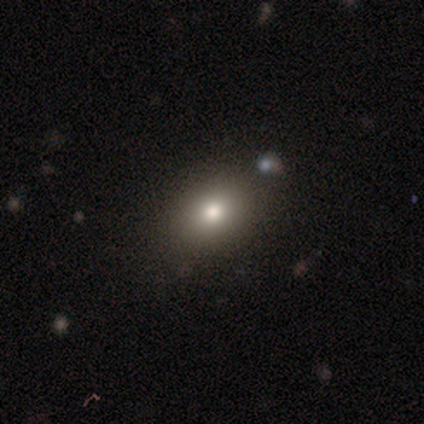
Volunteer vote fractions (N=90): Smooth or featured? 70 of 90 (78%) said smooth. How rounded? 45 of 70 (64%) said in between. Merging? 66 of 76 (87%) said none.